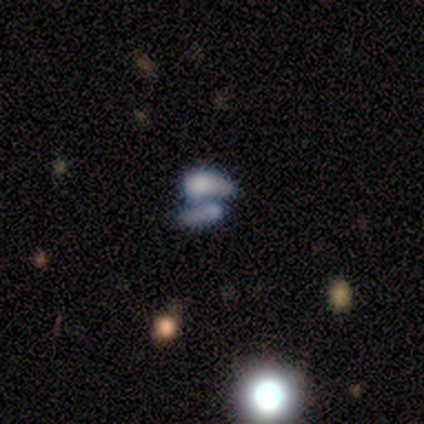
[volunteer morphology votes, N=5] Q: Smooth or featured?
A: featured or disk (80%); runner-up: smooth (20%)
Q: Edge-on disk?
A: no (100%)
Q: Bar?
A: no (100%)
Q: Spiral arms?
A: no (100%)
Q: Bulge size?
A: none (75%); runner-up: small (25%)
Q: Merging?
A: merger (100%)